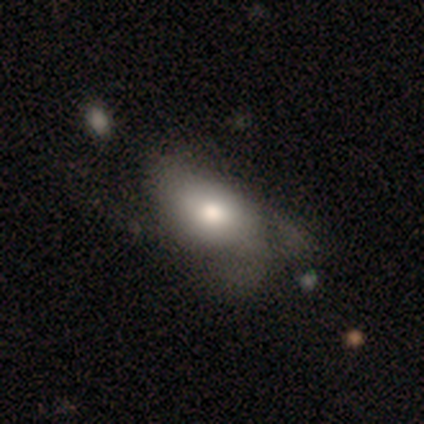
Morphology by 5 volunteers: Q: Smooth or featured?
A: smooth (80%); runner-up: featured or disk (20%)
Q: How rounded?
A: in between (100%)
Q: Merging?
A: major disturbance (80%); runner-up: minor disturbance (20%)